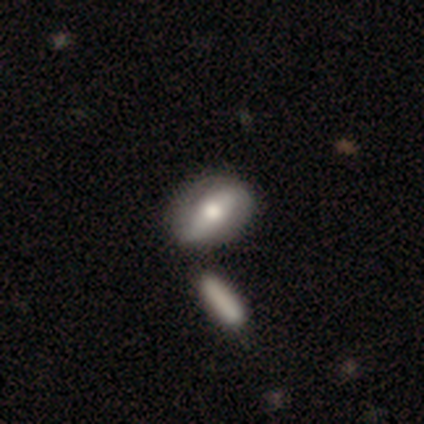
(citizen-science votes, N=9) Morphology: type=smooth (56%); roundness=in between (80%); merging=none (78%).